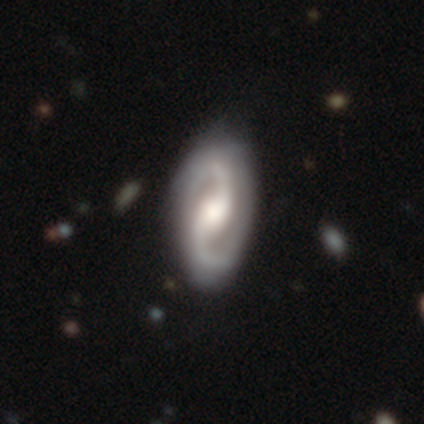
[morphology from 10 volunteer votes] Overall: featured or disk (80%). Edge-on disk: no (88%). Bar: no (57%; weak 29%). Spiral arms: yes (100%). Spiral arm count: 2 (100%). Spiral winding: medium (43%, tied with loose). Bulge size: large (43%, tied with moderate). Merging: none (90%).